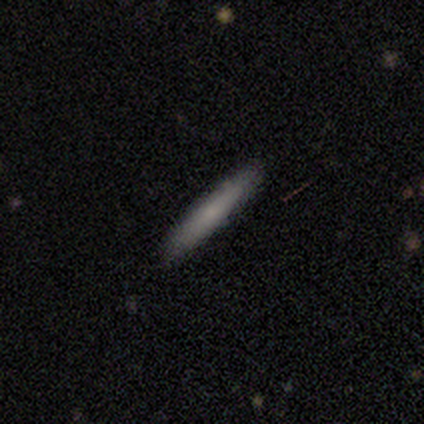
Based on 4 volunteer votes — A smooth galaxy with no disk features (75%) that is cigar-shaped (100%). Merging: none (100%).